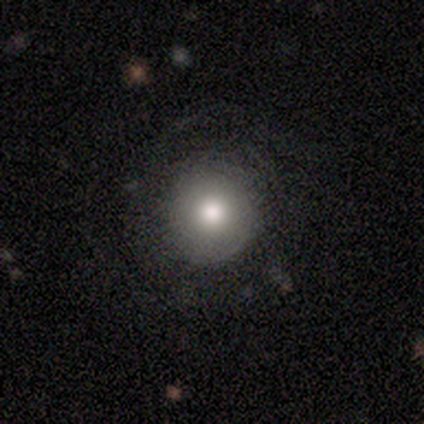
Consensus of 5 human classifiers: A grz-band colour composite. It shows a smooth galaxy with no disk features (80%) that is round (100%). Merging: none (60%).